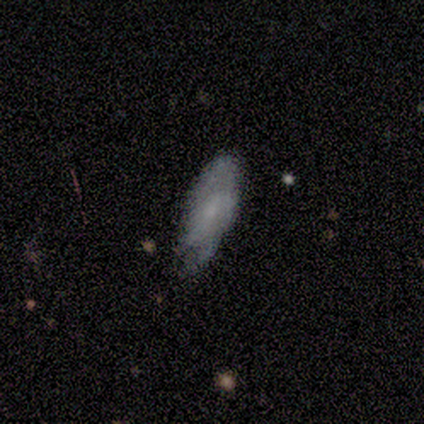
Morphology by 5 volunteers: smooth 80%, featured or disk 20%, star or artifact 0%. Down the decision tree: how rounded — in between (75%); merging — none (40%, tied with minor disturbance).